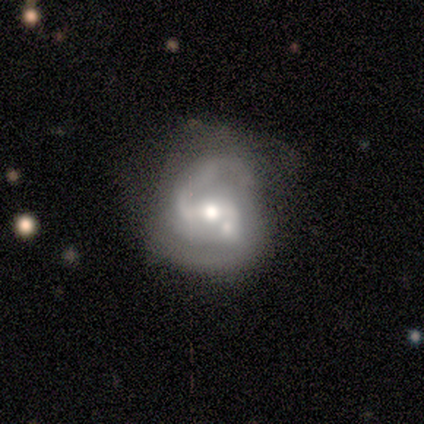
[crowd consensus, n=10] Morphology: type=featured or disk (90%); edge-on=no (100%); bar=weak (56%); spiral arms=yes (100%); winding=medium (67%); arm count=2 (78%); bulge=moderate (67%); merging=none (40%).